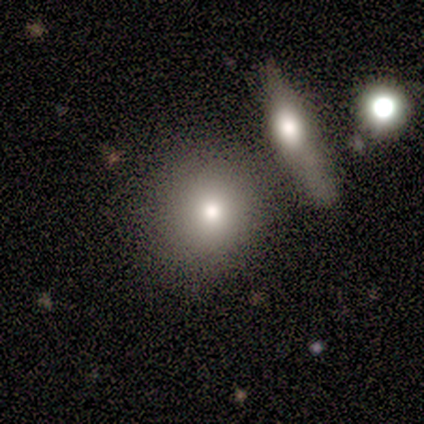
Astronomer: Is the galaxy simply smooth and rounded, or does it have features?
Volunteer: smooth — 60% (runner-up: featured or disk, 40%).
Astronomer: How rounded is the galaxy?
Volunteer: round — 67%.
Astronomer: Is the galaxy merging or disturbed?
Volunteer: none — 60% (runner-up: minor disturbance, 40%).